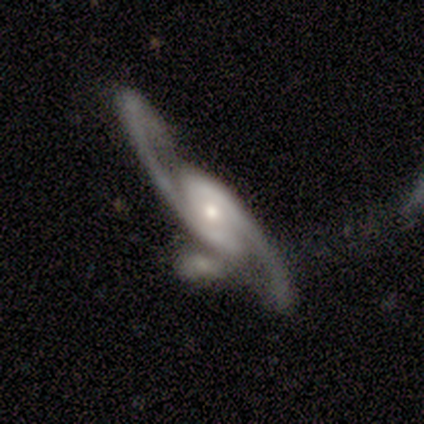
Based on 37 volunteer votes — Smooth or featured? 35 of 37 (95%) said featured or disk. Edge-on disk? 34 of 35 (97%) said no. Bar? 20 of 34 (59%) said no. Spiral arms? 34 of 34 (100%) said yes. Spiral winding? 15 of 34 (44%) said medium. Spiral arm count? 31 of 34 (91%) said 2. Bulge size? 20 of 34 (59%) said small. Merging? 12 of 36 (33%) said none.